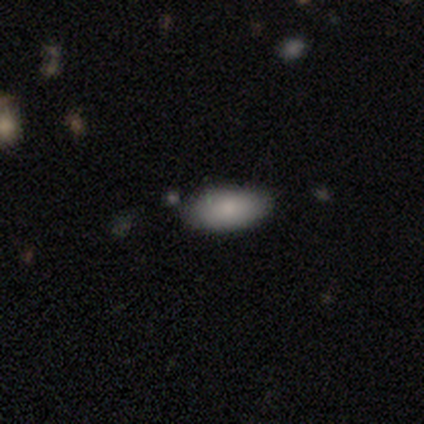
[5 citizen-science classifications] Q: Smooth or featured?
A: smooth (100%)
Q: How rounded?
A: in between (80%); runner-up: cigar-shaped (20%)
Q: Merging?
A: none (100%)